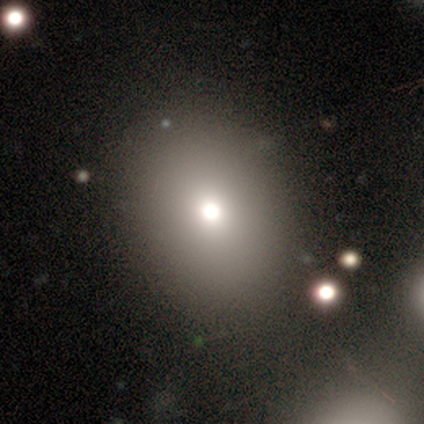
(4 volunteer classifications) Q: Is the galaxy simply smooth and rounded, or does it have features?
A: smooth — 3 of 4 (75%).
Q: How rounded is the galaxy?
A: round — 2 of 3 (67%).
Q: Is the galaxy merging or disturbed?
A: none — 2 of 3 (67%).